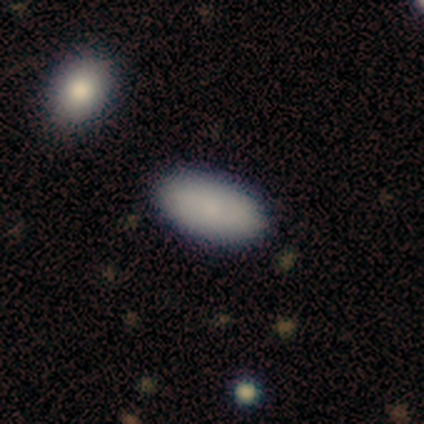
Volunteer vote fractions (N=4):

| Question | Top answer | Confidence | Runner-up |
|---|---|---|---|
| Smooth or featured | smooth | 50% | tied: featured or disk (50%) |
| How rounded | in between | 100% | — |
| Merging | none | 50% | major disturbance (25%) |